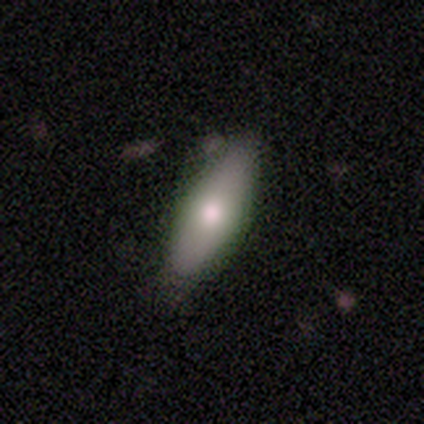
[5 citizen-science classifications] Smooth or featured: smooth — 100%
How rounded: in between — 80% (cigar-shaped — 20%)
Merging: none — 60% (minor disturbance — 40%)